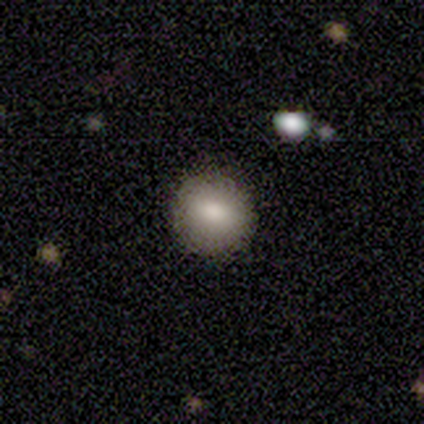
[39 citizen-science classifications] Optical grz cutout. It shows a smooth galaxy with no disk features (82%) that is round (91%). Merging: none (92%).